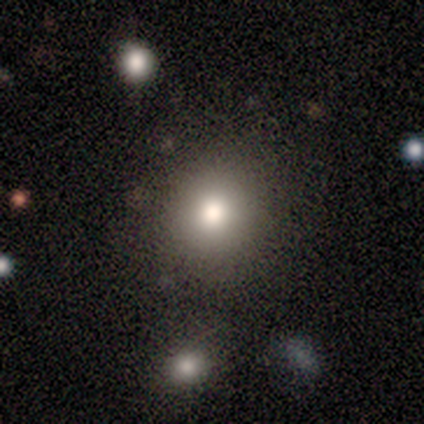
A smooth galaxy with no disk features (100%) that is round (100%).

Vote fractions:
- Smooth or featured? smooth: 100% / featured or disk: 0% / star or artifact: 0%
- How rounded? round: 100% / in between: 0% / cigar-shaped: 0%
- Merging? none: 80% / minor disturbance: 20% / major disturbance: 0% / merger: 0%